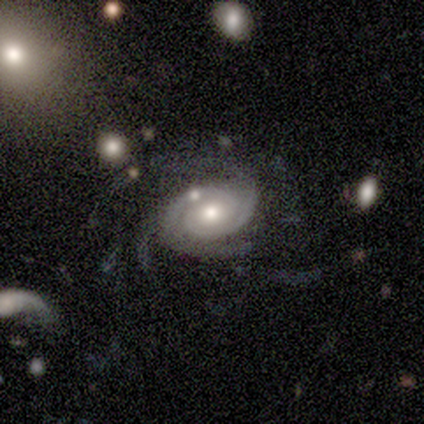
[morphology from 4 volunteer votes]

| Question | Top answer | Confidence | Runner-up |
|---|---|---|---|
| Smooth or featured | featured or disk | 100% | — |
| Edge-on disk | no | 100% | — |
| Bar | no | 100% | — |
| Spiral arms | yes | 100% | — |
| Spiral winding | tight | 100% | — |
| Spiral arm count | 2 | 50% | 3 (25%) |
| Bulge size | moderate | 50% | tied: small (50%) |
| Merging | none | 75% | minor disturbance (25%) |